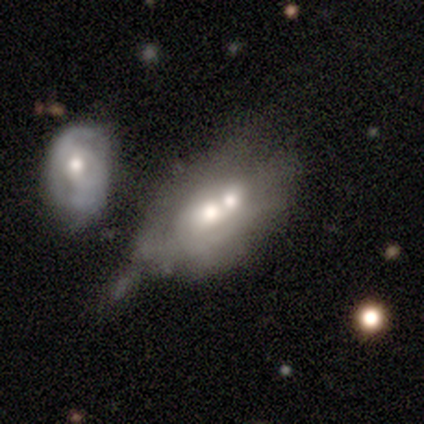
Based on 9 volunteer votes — Smooth or featured?
  - featured or disk: 67% *
  - smooth: 22%
  - star or artifact: 11%
Edge-on disk?
  - no: 100% *
  - yes: 0%
Bar?
  - no: 100% *
  - strong: 0%
  - weak: 0%
Spiral arms?
  - no: 83% *
  - yes: 17%
Bulge size?
  - moderate: 83% *
  - small: 17%
  - dominant: 0%
  - large: 0%
  - none: 0%
Merging?
  - merger: 50% *
  - minor disturbance: 38%
  - none: 12%
  - major disturbance: 0%